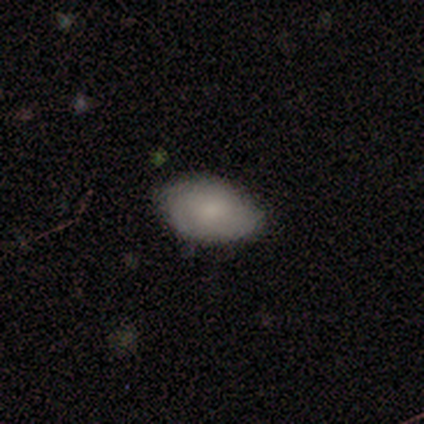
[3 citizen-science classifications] smooth-or-featured: smooth: 100% | featured or disk: 0% | star or artifact: 0%
  how-rounded: in between: 100% | round: 0% | cigar-shaped: 0%
  merging: minor disturbance: 67% | none: 33% | major disturbance: 0% | merger: 0%